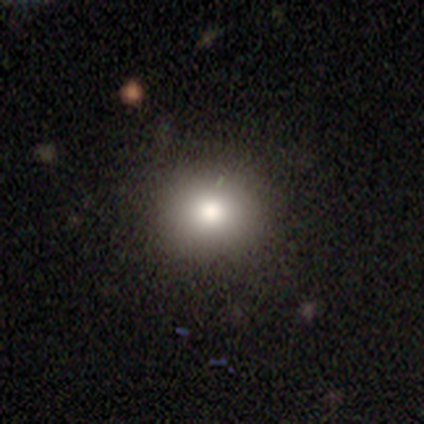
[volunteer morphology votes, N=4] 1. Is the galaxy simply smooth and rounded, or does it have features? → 100% smooth, 0% featured or disk, 0% star or artifact.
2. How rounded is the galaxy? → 100% round, 0% in between, 0% cigar-shaped.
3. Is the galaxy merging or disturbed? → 100% none, 0% minor disturbance, 0% major disturbance, 0% merger.